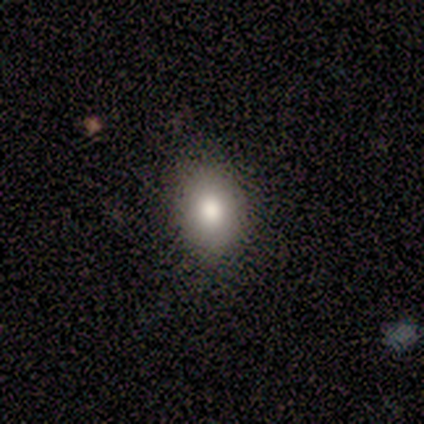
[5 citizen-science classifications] Volunteers were most divided on "how rounded" (2-way tie): round: 50%, in between: 50%, cigar-shaped: 0%. More confident: merging — none (100%); smooth or featured — smooth (80%).